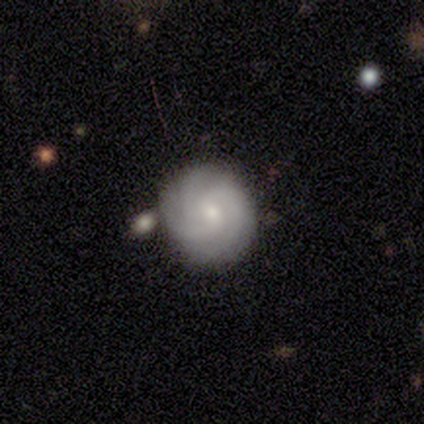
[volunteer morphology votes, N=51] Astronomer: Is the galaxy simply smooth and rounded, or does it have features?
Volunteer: featured or disk — 69%.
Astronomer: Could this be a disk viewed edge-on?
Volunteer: no — 100%.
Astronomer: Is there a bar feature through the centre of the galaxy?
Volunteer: no — 57% (runner-up: weak, 40%).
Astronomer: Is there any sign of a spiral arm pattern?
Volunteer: yes — 100%.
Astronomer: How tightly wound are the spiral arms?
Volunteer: tight — 63%.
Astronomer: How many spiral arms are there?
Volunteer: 3 — 49%.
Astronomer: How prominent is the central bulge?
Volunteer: moderate — 60% (runner-up: small, 37%).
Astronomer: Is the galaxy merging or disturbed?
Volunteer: none — 65%.